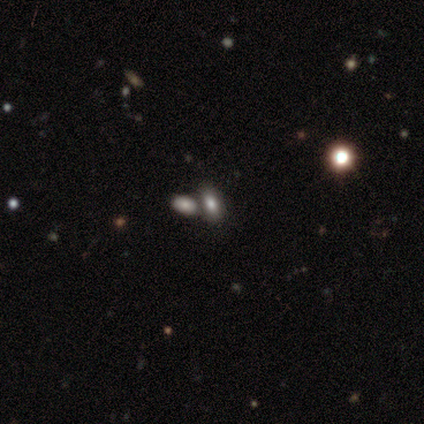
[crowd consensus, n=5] Morphology: type=smooth (80%); roundness=in between (100%); merging=none (40%, tied with merger).